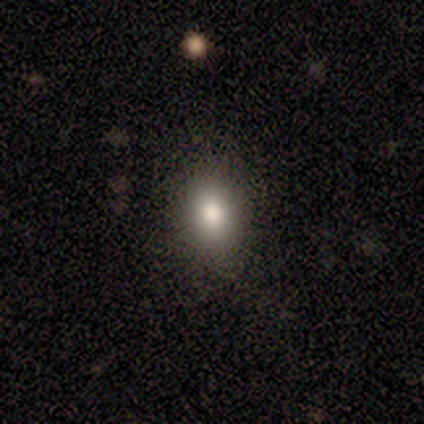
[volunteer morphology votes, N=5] This appears to be a smooth galaxy with no disk features (80%) that is in between round and cigar-shaped (75%). Merging: none (100%).